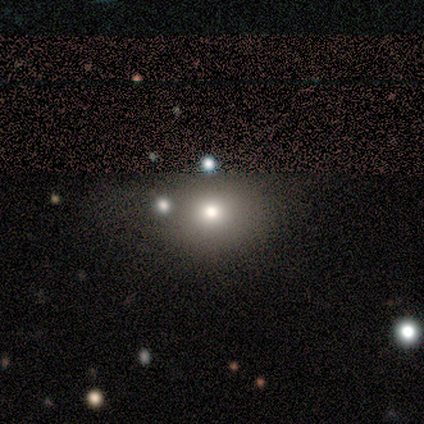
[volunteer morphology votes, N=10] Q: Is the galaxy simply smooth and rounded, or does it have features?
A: smooth — 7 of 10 (70%).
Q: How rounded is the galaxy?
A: in between — 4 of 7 (57%).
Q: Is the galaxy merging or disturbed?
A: none — 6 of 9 (67%).